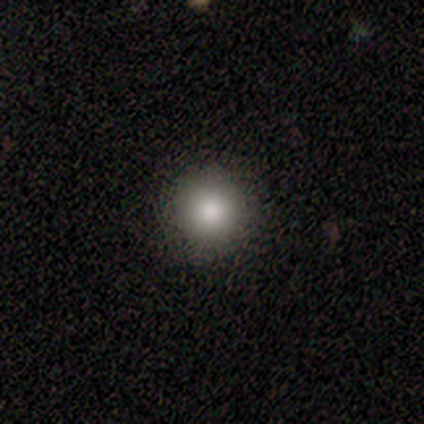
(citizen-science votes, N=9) Q: Smooth or featured?
A: smooth (78%); runner-up: featured or disk (11%)
Q: How rounded?
A: round (86%); runner-up: in between (14%)
Q: Merging?
A: none (100%)